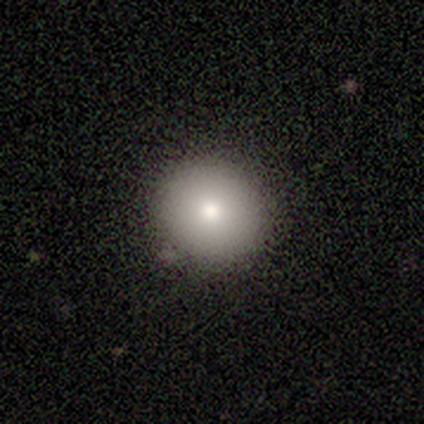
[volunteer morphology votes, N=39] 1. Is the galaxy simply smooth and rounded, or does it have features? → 74% smooth, 15% star or artifact, 10% featured or disk.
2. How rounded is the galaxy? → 83% round, 17% in between, 0% cigar-shaped.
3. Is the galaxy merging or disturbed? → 85% none, 9% minor disturbance, 6% merger, 0% major disturbance.